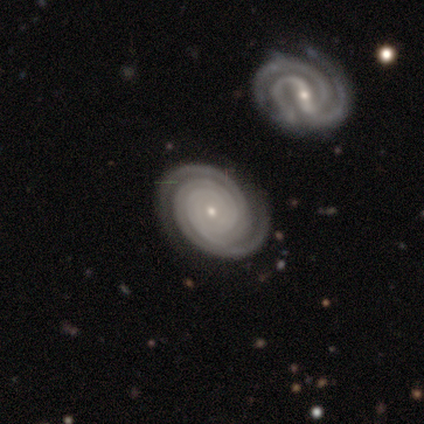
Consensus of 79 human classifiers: Smooth or featured?
  - featured or disk: 91% *
  - star or artifact: 6%
  - smooth: 3%
Edge-on disk?
  - no: 99% *
  - yes: 1%
Bar?
  - no: 80% *
  - strong: 10%
  - weak: 10%
Spiral arms?
  - yes: 100% *
  - no: 0%
Spiral winding?
  - tight: 96% *
  - medium: 4%
  - loose: 0%
Spiral arm count?
  - 2: 61% *
  - can't tell: 14%
  - 3: 13%
  - more than 4: 8%
  - 4: 3%
  - 1: 1%
Bulge size?
  - small: 80% *
  - moderate: 18%
  - none: 1%
  - dominant: 0%
  - large: 0%
Merging?
  - none: 42% *
  - merger: 16%
  - minor disturbance: 4%
  - major disturbance: 1%